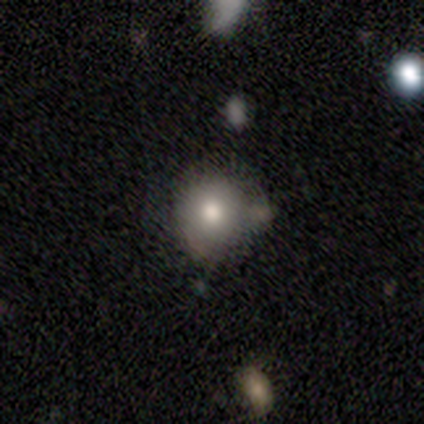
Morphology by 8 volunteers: A smooth galaxy with no disk features (75%) that is round (83%).

Vote fractions:
- Smooth or featured? smooth: 75% / featured or disk: 12% / star or artifact: 12%
- How rounded? round: 83% / in between: 17% / cigar-shaped: 0%
- Merging? none: 43% (tied) / minor disturbance: 43% (tied) / merger: 14% / major disturbance: 0%